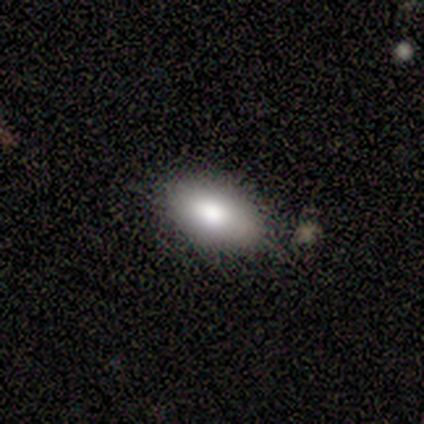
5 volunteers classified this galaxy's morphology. This is clearly a smooth galaxy (100%). How rounded: clearly in between (100%). Merging: clearly none (80%).